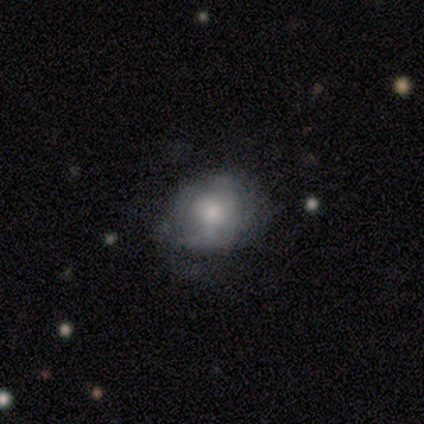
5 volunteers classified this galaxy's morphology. Q: Smooth or featured?
A: featured or disk (60%); runner-up: smooth (40%)
Q: Edge-on disk?
A: no (67%); runner-up: yes (33%)
Q: Bar?
A: no (100%)
Q: Spiral arms?
A: yes (50%); tied with: no (50%)
Q: Spiral winding?
A: tight (100%)
Q: Spiral arm count?
A: 2 (100%)
Q: Bulge size?
A: moderate (100%)
Q: Merging?
A: none (80%); runner-up: major disturbance (20%)